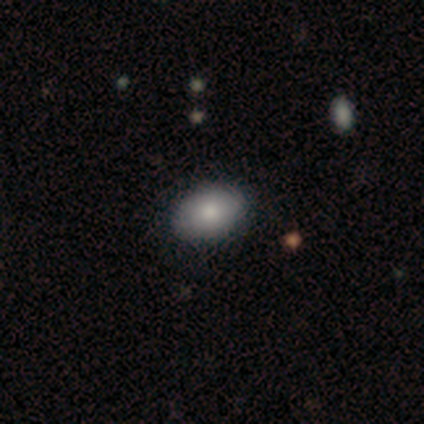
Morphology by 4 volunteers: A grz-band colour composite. It shows a smooth galaxy with no disk features (100%) that is in between round and cigar-shaped (100%). Merging: none (100%).